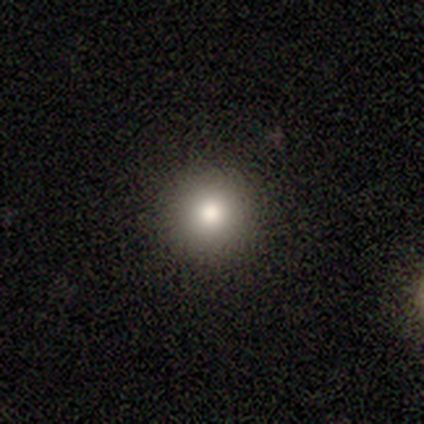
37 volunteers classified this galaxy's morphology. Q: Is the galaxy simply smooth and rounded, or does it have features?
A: smooth — 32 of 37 (86%).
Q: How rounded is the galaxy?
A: round — 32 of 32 (100%).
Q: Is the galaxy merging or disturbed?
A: none — 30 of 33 (91%).